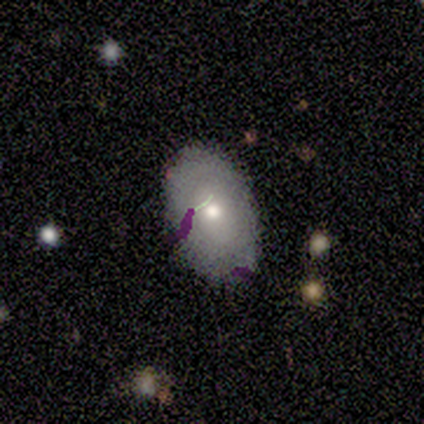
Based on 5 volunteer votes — Morphology: type=smooth (40%, tied with star or artifact); roundness=round (50%, tied with in between); merging=none (100%).